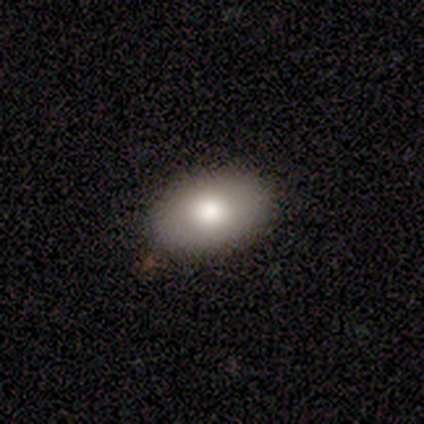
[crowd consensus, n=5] Smooth or featured? 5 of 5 (100%) said smooth. How rounded? 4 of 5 (80%) said in between. Merging? 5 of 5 (100%) said none.